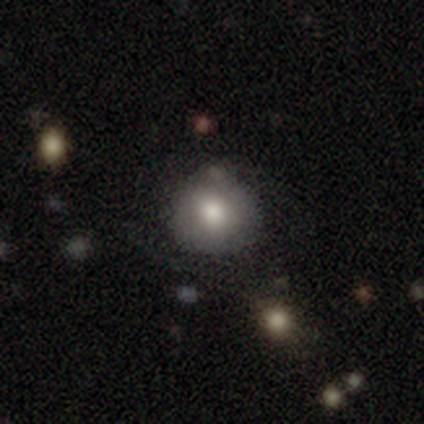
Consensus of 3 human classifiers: smooth 67%, star or artifact 33%, featured or disk 0%. Down the decision tree: how rounded — round (100%); merging — minor disturbance (100%).